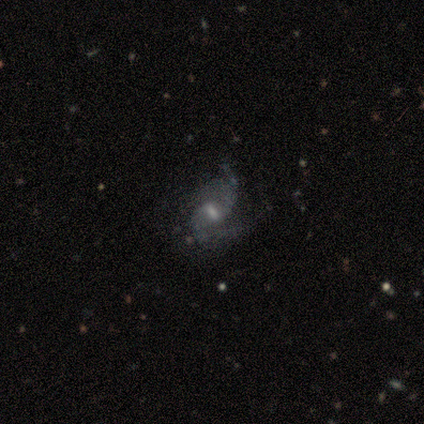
Smooth or featured?
  - featured or disk: 95% *
  - smooth: 2%
  - star or artifact: 2%
Edge-on disk?
  - no: 100% *
  - yes: 0%
Bar?
  - weak: 59% *
  - strong: 21%
  - no: 21%
Spiral arms?
  - yes: 95% *
  - no: 5%
Spiral winding?
  - loose: 62% *
  - medium: 27%
  - tight: 11%
Spiral arm count?
  - 2: 68% *
  - can't tell: 19%
  - 3: 8%
  - 1: 5%
  - 4: 0%
  - more than 4: 0%
Bulge size?
  - moderate: 41% *
  - none: 28%
  - small: 26%
  - large: 5%
  - dominant: 0%
Merging?
  - none: 30% *
  - minor disturbance: 25%
  - major disturbance: 15%
  - merger: 0%